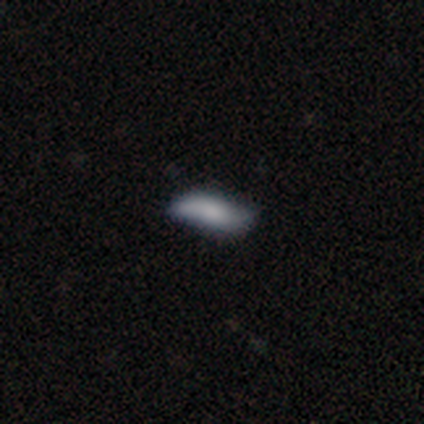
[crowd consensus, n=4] smooth_or_featured: smooth (p=0.75) [alt: featured or disk p=0.25]
how_rounded: cigar-shaped (p=0.67) [alt: in between p=0.33]
merging: minor disturbance (p=0.50) [alt: none p=0.25]